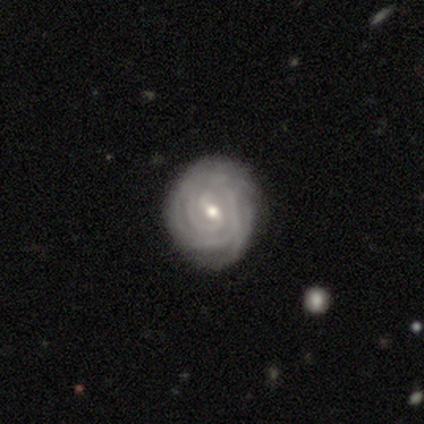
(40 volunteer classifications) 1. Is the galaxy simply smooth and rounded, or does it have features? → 95% featured or disk, 5% smooth, 0% star or artifact.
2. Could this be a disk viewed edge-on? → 100% no, 0% yes.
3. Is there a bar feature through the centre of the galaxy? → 61% weak, 21% strong, 18% no.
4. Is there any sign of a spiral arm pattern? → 97% yes, 3% no.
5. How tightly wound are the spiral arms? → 92% tight, 8% medium, 0% loose.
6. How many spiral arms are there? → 35% can't tell, 32% 2, 19% 3, 8% more than 4, 5% 4, 0% 1.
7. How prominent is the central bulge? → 55% moderate, 39% small, 5% large, 0% dominant, 0% none.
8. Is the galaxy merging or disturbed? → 55% none, 20% minor disturbance, 2% major disturbance, 2% merger.